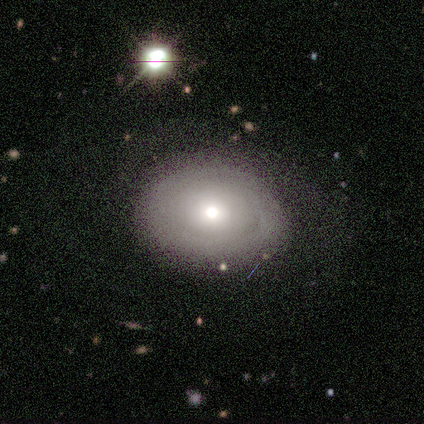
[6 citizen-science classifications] Smooth or featured: smooth — 50% (tied with featured or disk — 50%)
How rounded: in between — 67% (round — 33%)
Merging: none — 67% (minor disturbance — 33%)